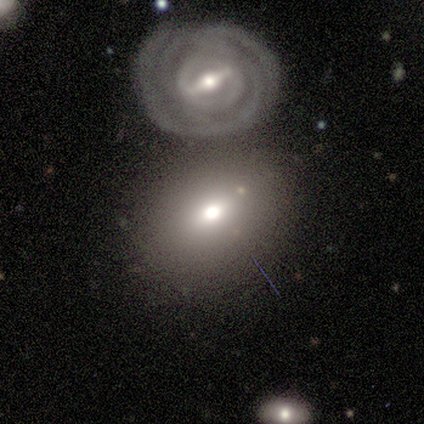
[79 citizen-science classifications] Smooth or featured? 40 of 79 (51%) said smooth. How rounded? 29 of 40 (72%) said in between. Merging? 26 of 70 (37%) said merger.